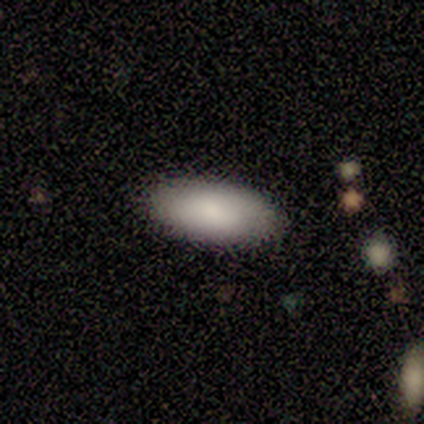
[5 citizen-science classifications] Q: Smooth or featured?
A: smooth (80%); runner-up: featured or disk (20%)
Q: How rounded?
A: in between (75%); runner-up: cigar-shaped (25%)
Q: Merging?
A: none (100%)